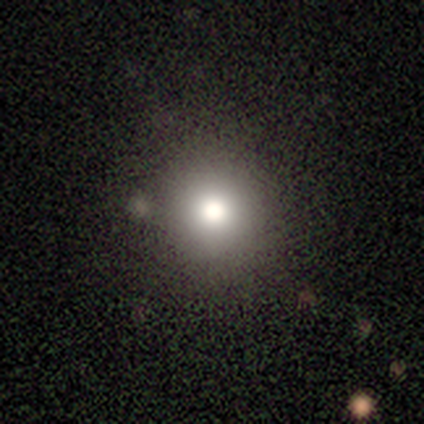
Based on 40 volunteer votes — Smooth or featured? 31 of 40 (78%) said smooth. How rounded? 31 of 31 (100%) said round. Merging? 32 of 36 (89%) said none.